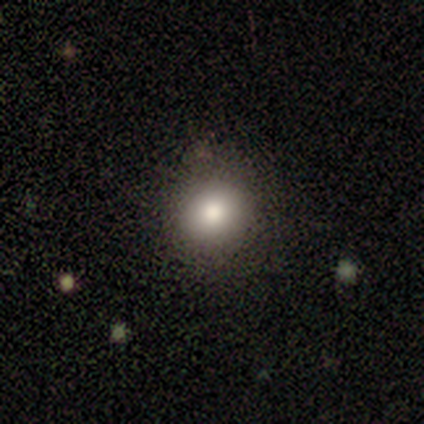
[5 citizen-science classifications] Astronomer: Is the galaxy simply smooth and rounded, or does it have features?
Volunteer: smooth — 80%.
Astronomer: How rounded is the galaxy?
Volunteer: round — 100%.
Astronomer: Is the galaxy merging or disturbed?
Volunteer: none — 100%.